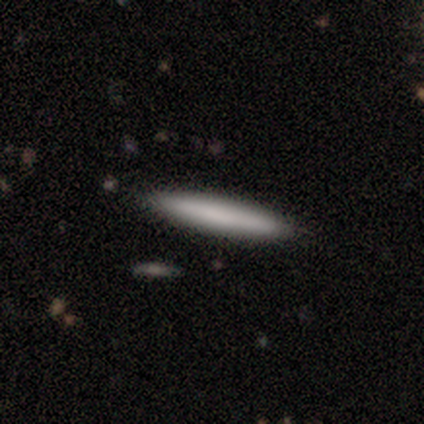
smooth-or-featured: smooth: 60% | featured or disk: 20% | star or artifact: 20%
  how-rounded: cigar-shaped: 100% | round: 0% | in between: 0%
  merging: none: 100% | minor disturbance: 0% | major disturbance: 0% | merger: 0%